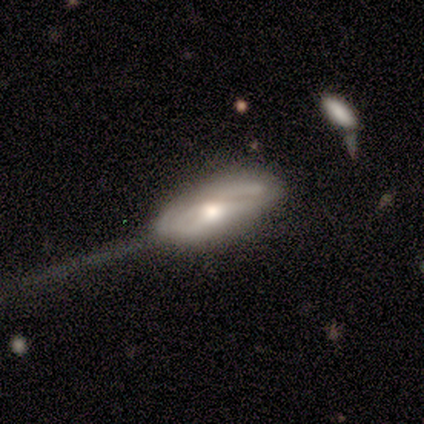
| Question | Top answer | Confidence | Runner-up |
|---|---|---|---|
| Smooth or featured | featured or disk | 60% | smooth (40%) |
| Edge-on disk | no | 100% | — |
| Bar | weak | 67% | no (33%) |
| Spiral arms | yes | 67% | no (33%) |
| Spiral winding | tight | 50% | tied: loose (50%) |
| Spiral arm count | can't tell | 100% | — |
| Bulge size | moderate | 67% | small (33%) |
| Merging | major disturbance | 60% | none (20%) |